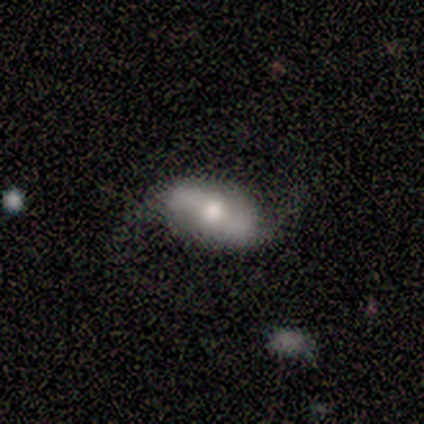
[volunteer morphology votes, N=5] smooth-or-featured: smooth: 80% | featured or disk: 20% | star or artifact: 0%
  how-rounded: in between: 100% | round: 0% | cigar-shaped: 0%
  merging: none: 100% | minor disturbance: 0% | major disturbance: 0% | merger: 0%